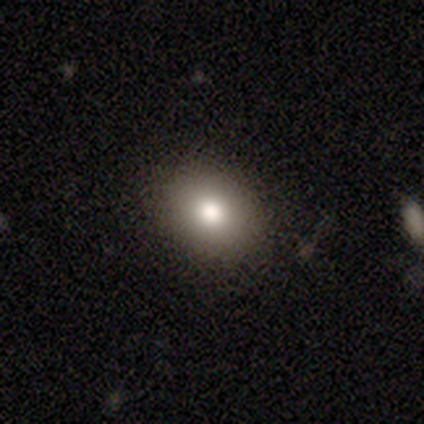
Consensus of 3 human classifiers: smooth_or_featured: smooth (p=1.00)
how_rounded: in between (p=0.67) [alt: round p=0.33]
merging: none (p=1.00)